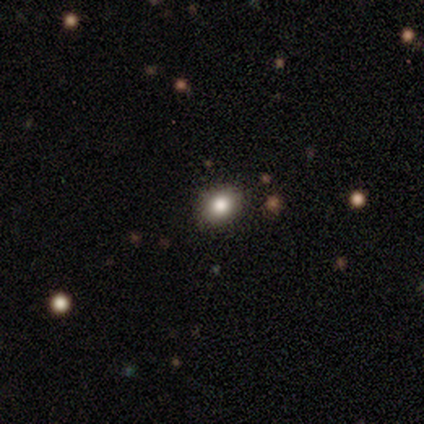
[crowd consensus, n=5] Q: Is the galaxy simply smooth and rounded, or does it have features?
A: smooth — 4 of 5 (80%).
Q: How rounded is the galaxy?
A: round — 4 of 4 (100%).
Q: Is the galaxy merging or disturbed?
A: none — 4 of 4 (100%).